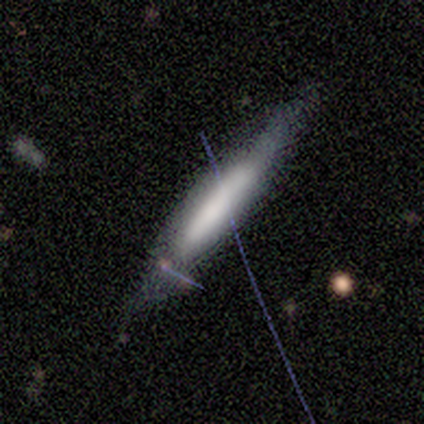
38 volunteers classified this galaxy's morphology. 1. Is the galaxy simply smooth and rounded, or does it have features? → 53% featured or disk, 39% smooth, 8% star or artifact.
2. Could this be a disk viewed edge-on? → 75% yes, 25% no.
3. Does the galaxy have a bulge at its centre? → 47% boxy, 40% none, 13% rounded.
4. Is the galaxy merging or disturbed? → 71% none, 26% minor disturbance, 3% major disturbance, 0% merger.